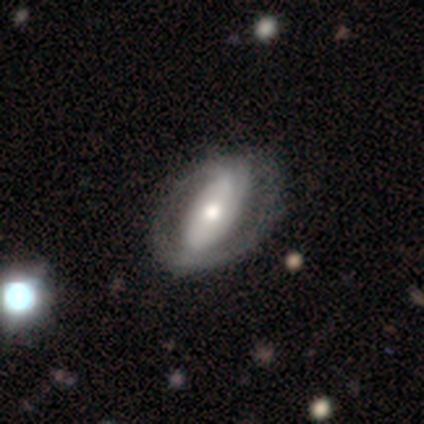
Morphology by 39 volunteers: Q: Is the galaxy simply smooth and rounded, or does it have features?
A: featured or disk — 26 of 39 (67%).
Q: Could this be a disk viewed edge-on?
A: no — 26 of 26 (100%).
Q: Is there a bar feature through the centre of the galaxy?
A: strong — 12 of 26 (46%).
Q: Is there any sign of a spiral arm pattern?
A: yes — 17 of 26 (65%).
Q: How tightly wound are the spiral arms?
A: tight — 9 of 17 (53%).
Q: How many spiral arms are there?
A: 2 — 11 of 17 (65%).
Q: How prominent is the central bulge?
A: moderate — 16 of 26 (62%).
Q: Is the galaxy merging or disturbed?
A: none — 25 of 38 (66%).